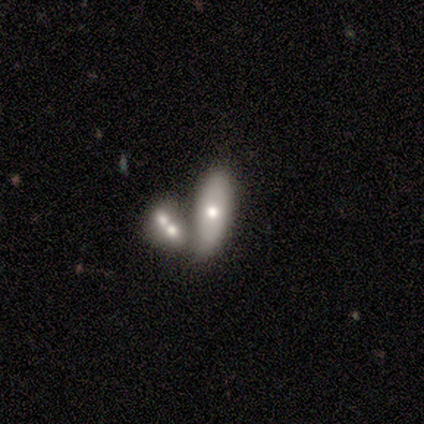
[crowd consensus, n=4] Smooth or featured?
  - smooth: 100% *
  - featured or disk: 0%
  - star or artifact: 0%
How rounded?
  - in between: 100% *
  - round: 0%
  - cigar-shaped: 0%
Merging?
  - merger: 75% *
  - major disturbance: 25%
  - none: 0%
  - minor disturbance: 0%